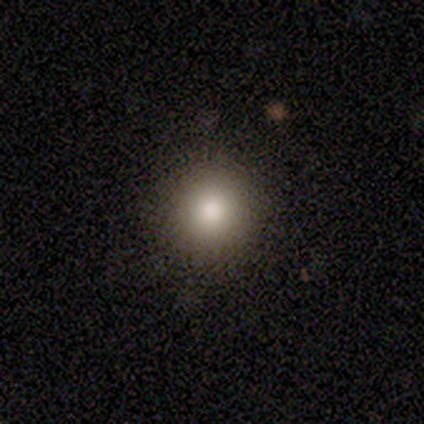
A smooth galaxy with no disk features (100%) that is round (80%).

Vote fractions:
- Smooth or featured? smooth: 100% / featured or disk: 0% / star or artifact: 0%
- How rounded? round: 80% / in between: 20% / cigar-shaped: 0%
- Merging? none: 80% / minor disturbance: 20% / major disturbance: 0% / merger: 0%